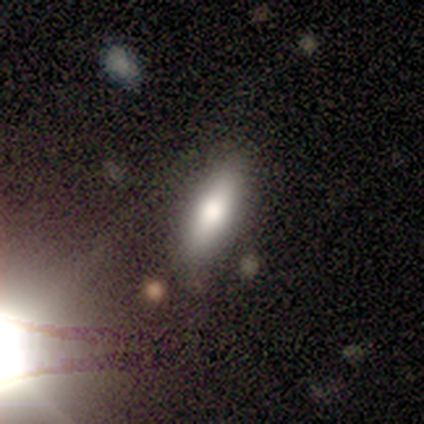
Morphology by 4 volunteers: Volunteers were most divided on "how rounded": cigar-shaped: 67%, in between: 33%, round: 0%. More confident: smooth or featured — smooth (75%); merging — none (75%).